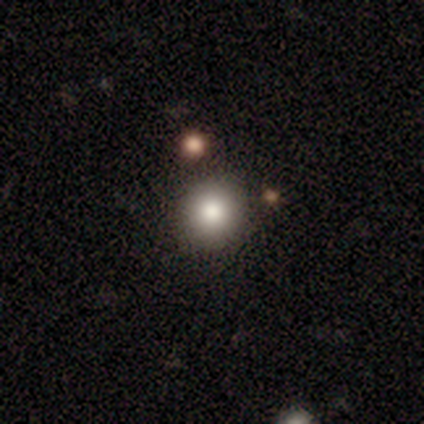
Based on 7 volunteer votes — Smooth or featured? smooth (86%)
How rounded? round (100%)
Merging? none (71%)